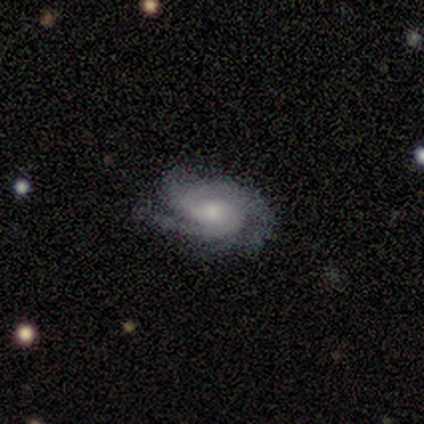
A featured or disk galaxy (90%) with no bar (70%), 3 (44%) tight (60%) spiral arms (93%) and a moderate central bulge (50%).

Vote fractions:
- Smooth or featured? featured or disk: 90% / smooth: 6% / star or artifact: 4%
- Edge-on disk? no: 98% / yes: 2%
- Bar? no: 70% / weak: 30% / strong: 0%
- Spiral arms? yes: 93% / no: 7%
- Spiral winding? tight: 60% / medium: 30% / loose: 9%
- Spiral arm count? 3: 44% / 2: 33% / can't tell: 16% / 4: 7% / 1: 0% / more than 4: 0%
- Bulge size? moderate: 50% / small: 30% / large: 13% / none: 7% / dominant: 0%
- Merging? none: 68% / minor disturbance: 20% / major disturbance: 12% / merger: 0%